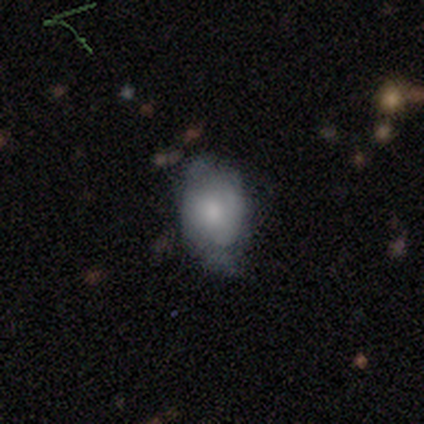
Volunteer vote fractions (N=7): A smooth galaxy with no disk features (57%) that is in between round and cigar-shaped (75%).

Vote fractions:
- Smooth or featured? smooth: 57% / featured or disk: 43% / star or artifact: 0%
- How rounded? in between: 75% / round: 25% / cigar-shaped: 0%
- Merging? minor disturbance: 57% / none: 43% / major disturbance: 0% / merger: 0%